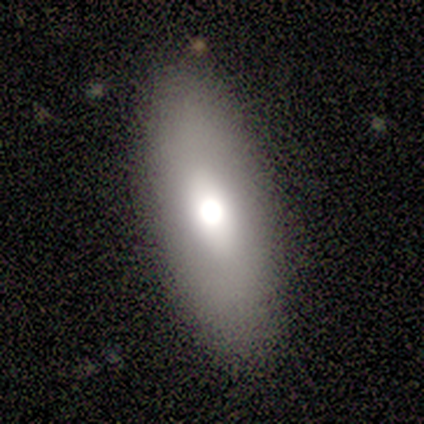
Overall: smooth (60%; featured or disk 40%). How rounded: in between (100%). Merging: none (60%; minor disturbance 40%).